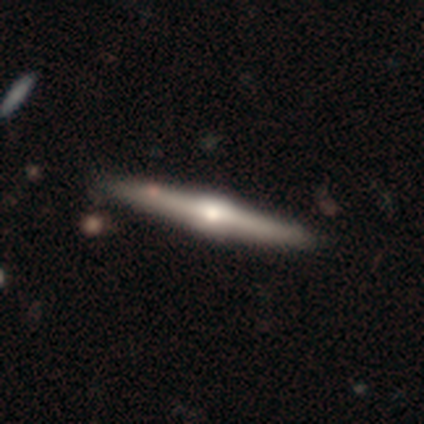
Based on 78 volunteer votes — Q: Smooth or featured?
A: featured or disk (81%); runner-up: smooth (18%)
Q: Edge-on disk?
A: yes (100%)
Q: Edge-on bulge?
A: rounded (95%); runner-up: boxy (5%)
Q: Merging?
A: none (44%); runner-up: minor disturbance (4%)